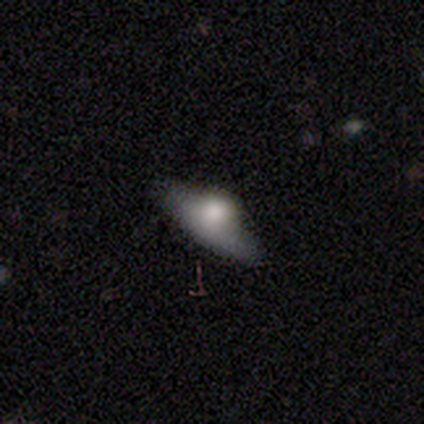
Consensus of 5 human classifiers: Smooth or featured? smooth (40%, tied with featured or disk)
How rounded? in between (100%)
Merging? none (50%, tied with major disturbance)